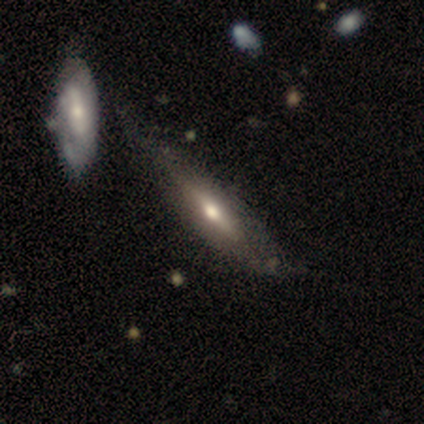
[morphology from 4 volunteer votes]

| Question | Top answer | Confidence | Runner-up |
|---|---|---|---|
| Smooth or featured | featured or disk | 75% | smooth (25%) |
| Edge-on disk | yes | 67% | no (33%) |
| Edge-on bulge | none | 50% | tied: rounded (50%) |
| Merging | none | 50% | tied: minor disturbance (50%) |